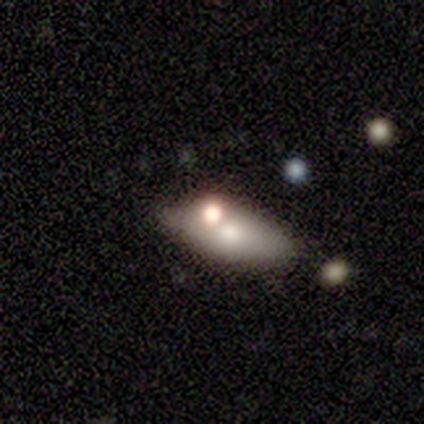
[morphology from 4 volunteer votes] smooth 50% (tied), featured or disk 50% (tied), star or artifact 0%. Down the decision tree: how rounded — round (50%, tied with in between); merging — none (75%).